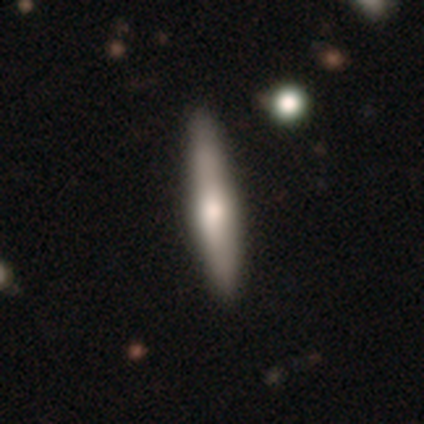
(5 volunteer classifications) Overall: smooth (60%; featured or disk 40%). How rounded: cigar-shaped (100%). Merging: none (80%).